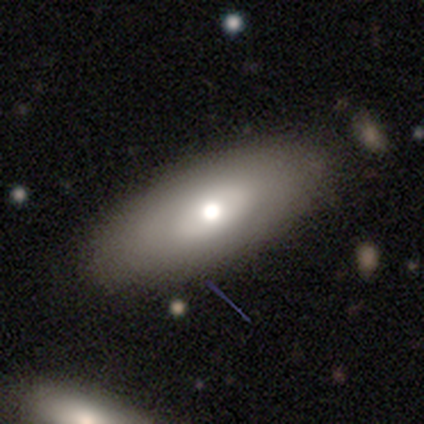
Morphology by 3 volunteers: Q: Smooth or featured?
A: featured or disk (100%)
Q: Edge-on disk?
A: no (100%)
Q: Bar?
A: no (100%)
Q: Spiral arms?
A: no (100%)
Q: Bulge size?
A: moderate (67%); runner-up: large (33%)
Q: Merging?
A: none (33%); tied with: minor disturbance (33%); merger (33%)